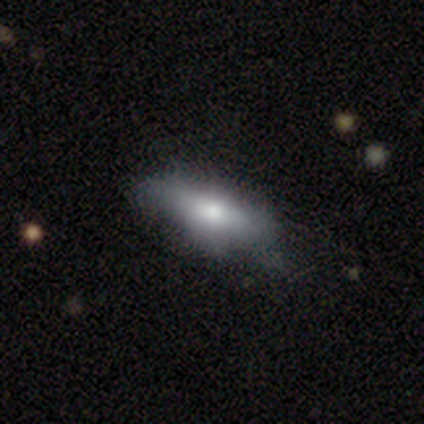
smooth-or-featured: smooth: 60% | featured or disk: 38% | star or artifact: 2%
  how-rounded: in between: 100% | round: 0% | cigar-shaped: 0%
  merging: none: 41% | minor disturbance: 15% | major disturbance: 5% | merger: 0%